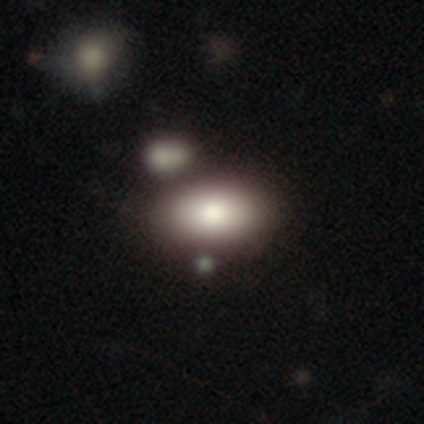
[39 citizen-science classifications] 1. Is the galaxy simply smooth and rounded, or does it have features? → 79% smooth, 13% featured or disk, 8% star or artifact.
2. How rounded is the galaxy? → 100% in between, 0% round, 0% cigar-shaped.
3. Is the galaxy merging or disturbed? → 78% none, 11% minor disturbance, 11% merger, 0% major disturbance.